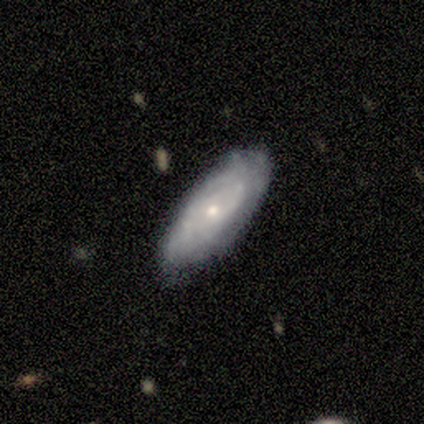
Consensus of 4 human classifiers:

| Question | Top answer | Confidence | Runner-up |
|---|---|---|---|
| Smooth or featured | smooth | 50% | tied: featured or disk (50%) |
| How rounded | in between | 100% | — |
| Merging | none | 75% | minor disturbance (25%) |